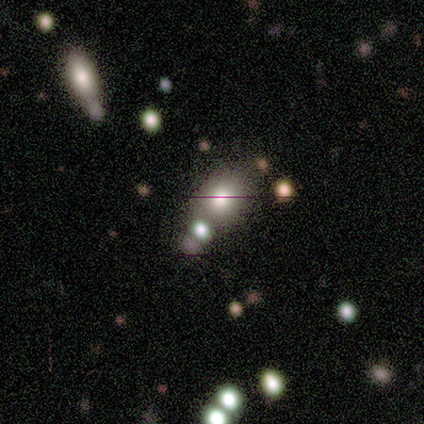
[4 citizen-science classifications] Morphology: type=smooth (75%); roundness=in between (67%); merging=none (67%).